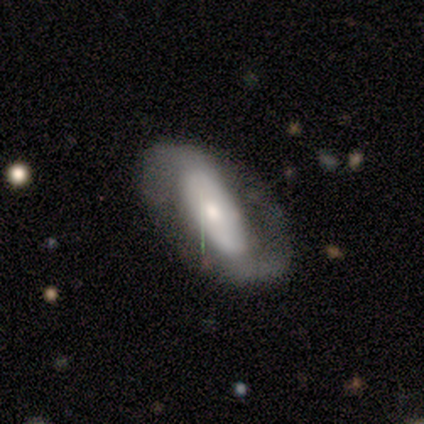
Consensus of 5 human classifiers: This appears to be a smooth galaxy with no disk features (60%) that is in between round and cigar-shaped (100%). Merging: none (100%).